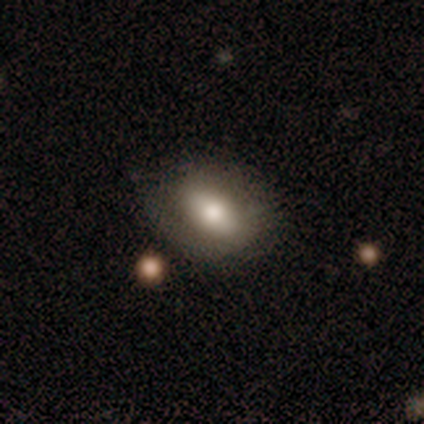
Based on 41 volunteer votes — Overall: smooth (73%). How rounded: in between (73%). Merging: none (73%).